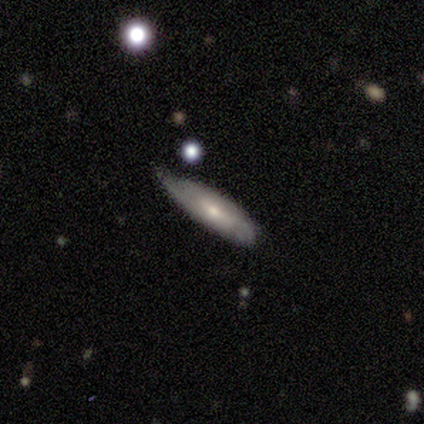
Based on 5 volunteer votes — Q: Smooth or featured?
A: smooth (60%); runner-up: featured or disk (40%)
Q: How rounded?
A: cigar-shaped (100%)
Q: Merging?
A: minor disturbance (60%); runner-up: none (20%)